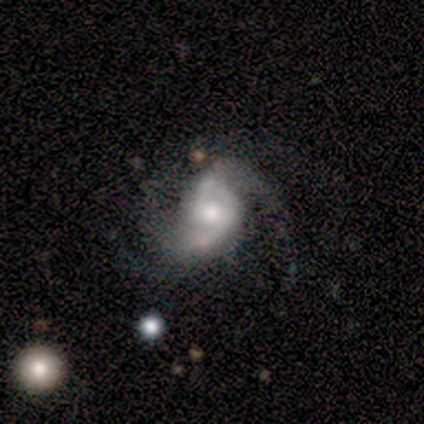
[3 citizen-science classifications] Smooth or featured: featured or disk — 67% (smooth — 33%)
Edge-on disk: no — 100%
Bar: weak — 50% (tied with no — 50%)
Spiral arms: yes — 100%
Spiral winding: medium — 50% (tied with loose — 50%)
Spiral arm count: 2 — 100%
Bulge size: moderate — 50% (tied with small — 50%)
Merging: none — 100%